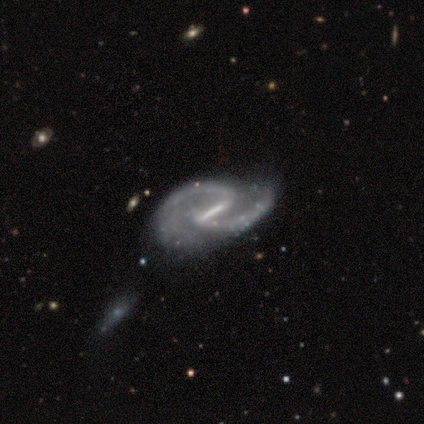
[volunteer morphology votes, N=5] Volunteers were most divided on "bar" (2-way tie): strong: 40%, weak: 40%, no: 20%. More confident: smooth or featured — featured or disk (100%); edge-on disk — no (100%); spiral winding — medium (100%); spiral arm count — 2 (100%); spiral arms — yes (80%); bulge size — small (60%); merging — major disturbance (60%).